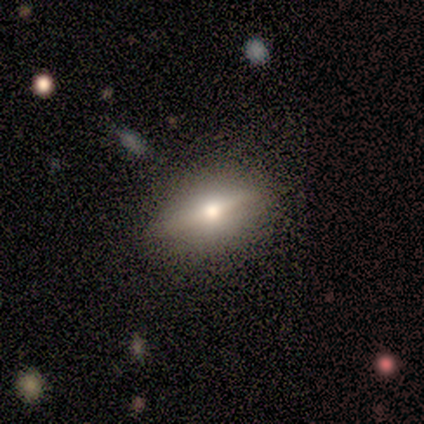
A smooth galaxy with no disk features (50%, tied with featured or disk) that is in between round and cigar-shaped (100%). Merging: none (100%).